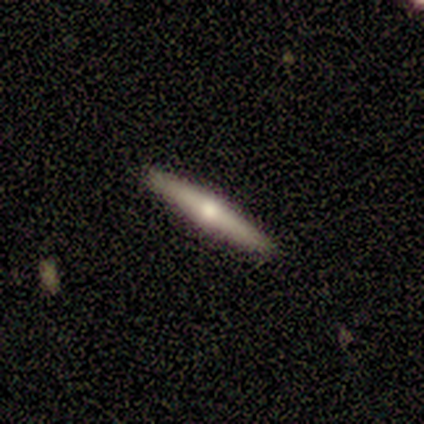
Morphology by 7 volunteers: This is possibly a smooth galaxy (57%). How rounded: clearly cigar-shaped (100%). Merging: clearly none (100%).